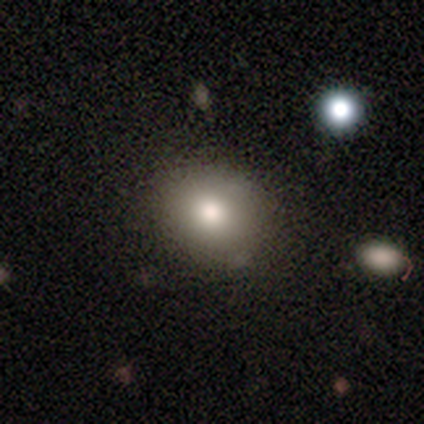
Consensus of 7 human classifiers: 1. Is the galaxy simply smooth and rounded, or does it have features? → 71% smooth, 29% star or artifact, 0% featured or disk.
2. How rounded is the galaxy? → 60% round, 40% in between, 0% cigar-shaped.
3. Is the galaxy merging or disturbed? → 60% none, 40% minor disturbance, 0% major disturbance, 0% merger.